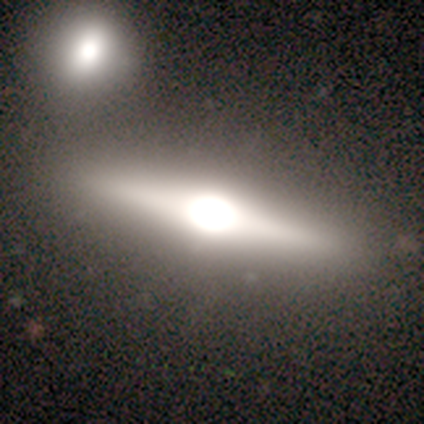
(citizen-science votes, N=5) Smooth or featured? 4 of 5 (80%) said featured or disk. Edge-on disk? 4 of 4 (100%) said yes. Edge-on bulge? 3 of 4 (75%) said rounded. Merging? 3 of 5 (60%) said none.